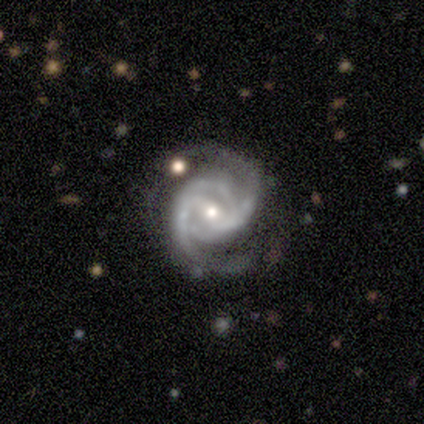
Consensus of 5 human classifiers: A featured or disk galaxy (100%) with a weak bar (40%, tied with no), 2 (80%) medium (60%) spiral arms (100%) and a small central bulge (60%). Merging: none (80%).